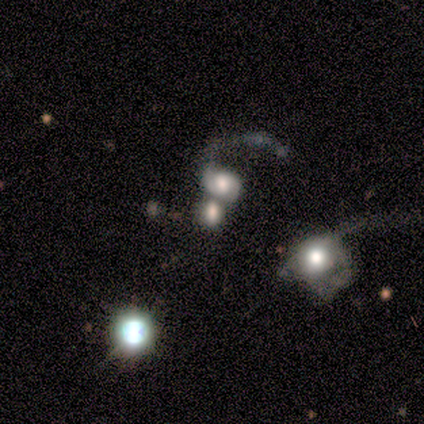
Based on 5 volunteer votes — Smooth or featured? smooth (60%)
How rounded? round (33%, tied with in between and cigar-shaped)
Merging? merger (75%)